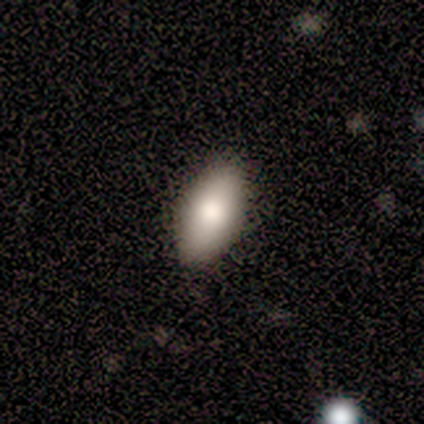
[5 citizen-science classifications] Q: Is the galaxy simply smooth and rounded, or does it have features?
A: smooth — 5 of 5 (100%).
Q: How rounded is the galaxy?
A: in between — 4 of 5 (80%).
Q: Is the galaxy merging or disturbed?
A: none — 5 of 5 (100%).